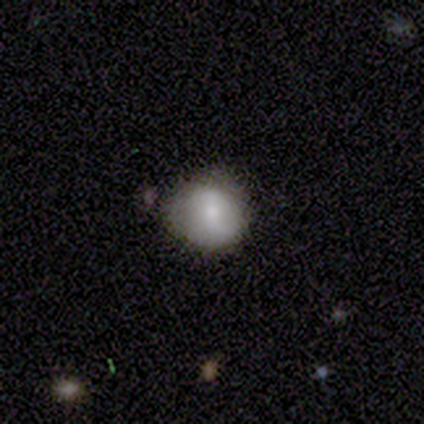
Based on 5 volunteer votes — Smooth or featured? smooth (100%)
How rounded? round (100%)
Merging? none (80%)